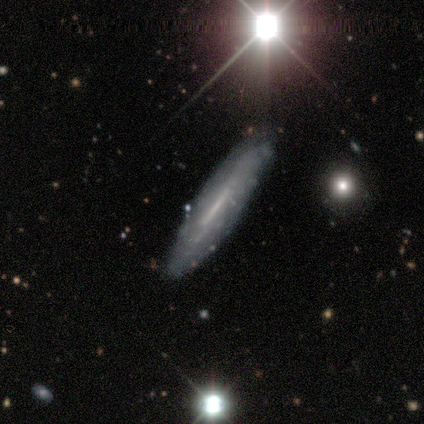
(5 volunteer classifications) smooth_or_featured: featured or disk (p=0.60) [alt: smooth p=0.40]
disk_edge_on: yes (p=1.00)
edge_on_bulge: none (p=1.00)
merging: none (p=1.00)